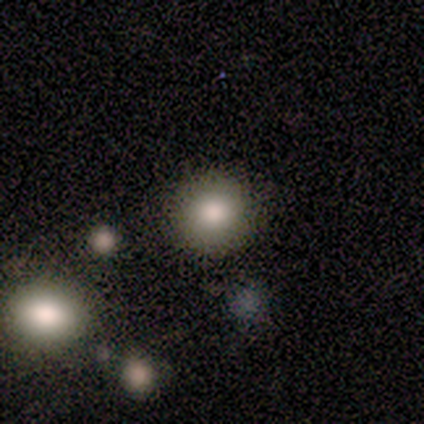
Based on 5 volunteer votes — Q: Smooth or featured?
A: smooth (80%); runner-up: featured or disk (20%)
Q: How rounded?
A: round (100%)
Q: Merging?
A: none (100%)